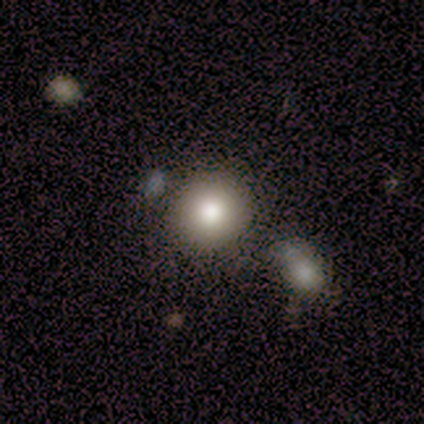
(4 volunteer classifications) This appears to be a smooth galaxy with no disk features (100%) that is round (75%). Merging: none (50%, tied with minor disturbance).